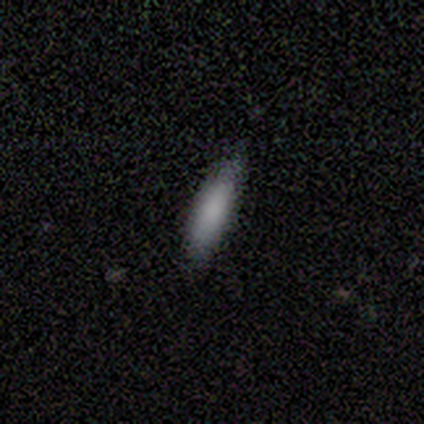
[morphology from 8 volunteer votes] This appears to be a smooth galaxy with no disk features (88%) that is cigar-shaped (86%). Merging: none (100%).